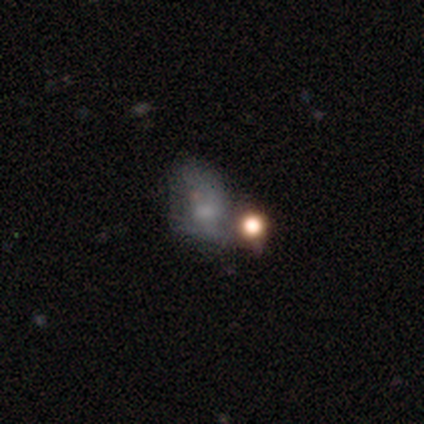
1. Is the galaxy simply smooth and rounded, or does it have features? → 40% smooth (tied), 40% star or artifact (tied), 20% featured or disk.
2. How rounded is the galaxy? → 100% in between, 0% round, 0% cigar-shaped.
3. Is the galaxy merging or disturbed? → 33% minor disturbance (tied), 33% major disturbance (tied), 33% merger (tied), 0% none.